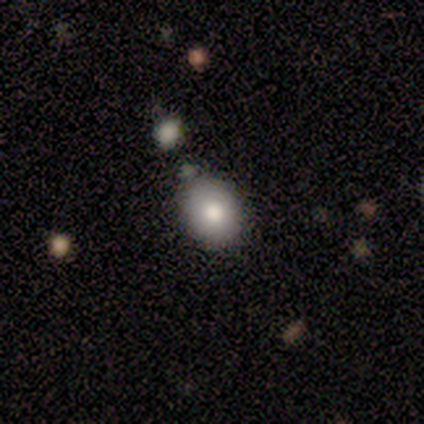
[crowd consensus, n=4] Overall: smooth (100%). How rounded: in between (75%). Merging: none (75%).